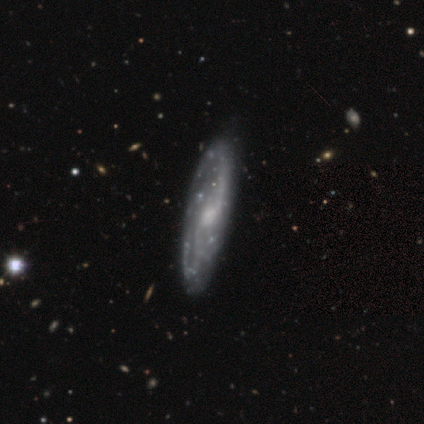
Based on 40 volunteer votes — This is clearly a featured or disk galaxy (82%). It is clearly not viewed edge-on (82%). Bar: possibly weak (56%). Spiral arm pattern: clearly yes (93%). Spiral arm count: marginally 2 (44%, tied with can't tell). Spiral winding: marginally loose (40%). Central bulge: possibly moderate (48%). Merging: likely none (68%).